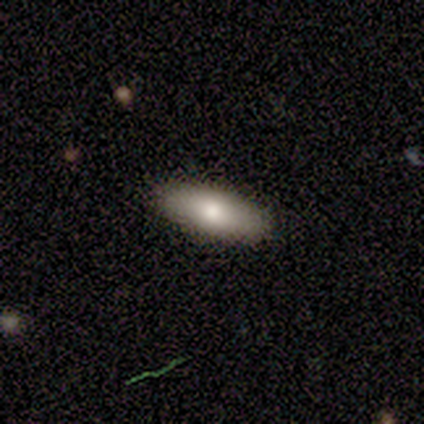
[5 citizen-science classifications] smooth 80%, featured or disk 20%, star or artifact 0%. Down the decision tree: how rounded — in between (75%); merging — none (100%).